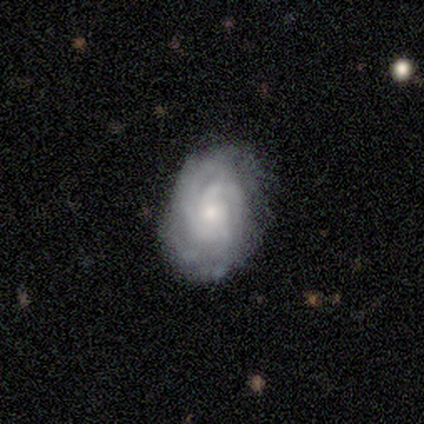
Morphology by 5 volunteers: Smooth or featured?
  - featured or disk: 80% *
  - smooth: 20%
  - star or artifact: 0%
Edge-on disk?
  - no: 100% *
  - yes: 0%
Bar?
  - no: 100% *
  - strong: 0%
  - weak: 0%
Spiral arms?
  - yes: 100% *
  - no: 0%
Spiral winding?
  - tight: 100% *
  - medium: 0%
  - loose: 0%
Spiral arm count?
  - 2: 25% * (tied)
  - 3: 25% * (tied)
  - 4: 25% * (tied)
  - can't tell: 25% * (tied)
  - 1: 0%
  - more than 4: 0%
Bulge size?
  - small: 75% *
  - moderate: 25%
  - dominant: 0%
  - large: 0%
  - none: 0%
Merging?
  - minor disturbance: 60% *
  - none: 40%
  - major disturbance: 0%
  - merger: 0%